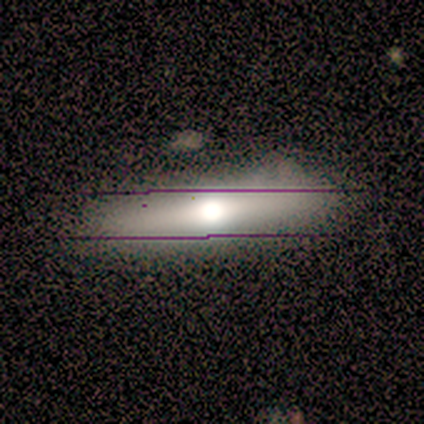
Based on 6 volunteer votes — Smooth or featured? featured or disk (67%)
Edge-on disk? yes (100%)
Edge-on bulge? rounded (100%)
Merging? none (100%)